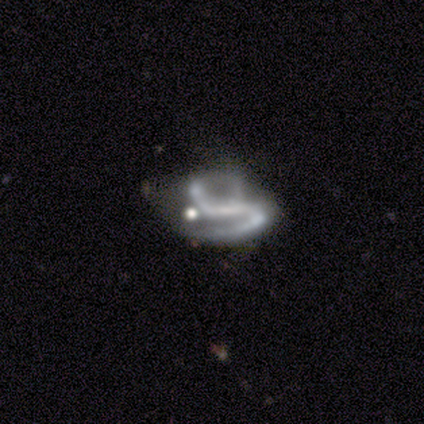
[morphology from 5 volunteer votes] type=featured or disk (100%); edge-on=no (100%); bar=strong (60%); spiral arms=yes (80%); winding=medium (50%); arm count=2 (75%); bulge=moderate (40%, tied with small); merging=minor disturbance (40%).